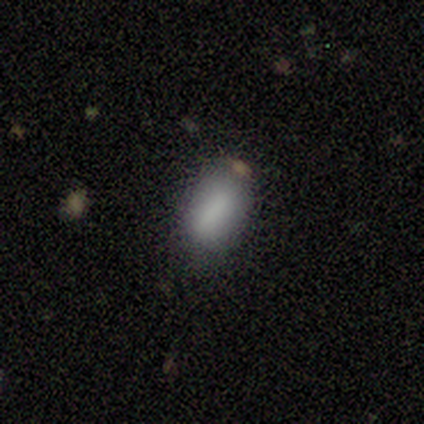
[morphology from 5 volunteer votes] Volunteers were most divided on "smooth or featured": smooth: 80%, featured or disk: 20%, star or artifact: 0%. More confident: how rounded — in between (100%); merging — none (80%).